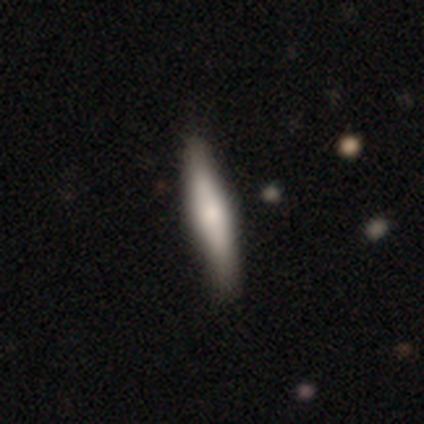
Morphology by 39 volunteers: Volunteers were most divided on "smooth or featured": smooth: 67%, featured or disk: 31%, star or artifact: 3%. More confident: how rounded — cigar-shaped (100%); merging — none (50%).